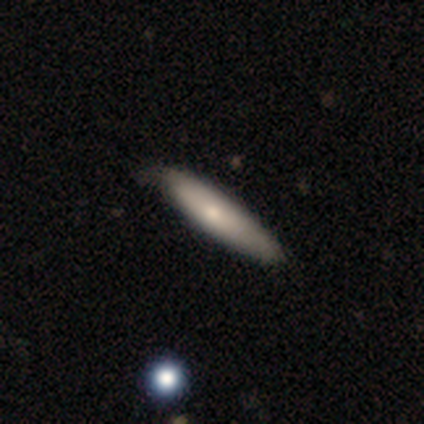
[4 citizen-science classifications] A smooth galaxy with no disk features (100%) that is cigar-shaped (75%). Merging: none (75%).